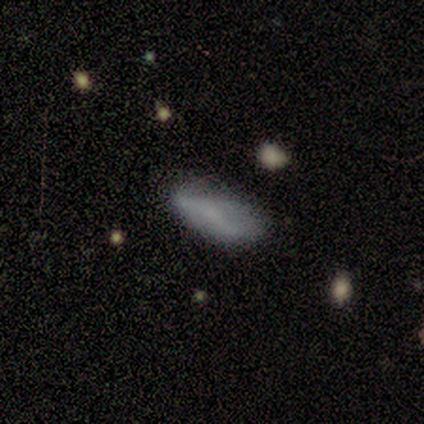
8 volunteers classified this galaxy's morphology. type=smooth (62%); roundness=in between (100%); merging=none (57%).